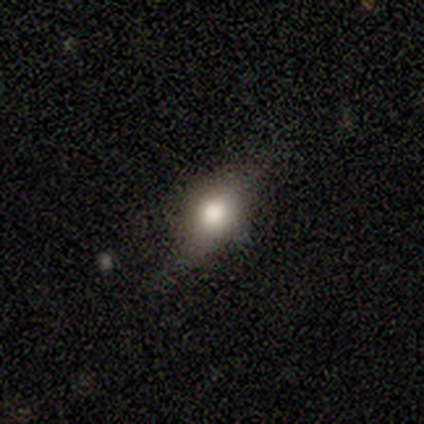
Morphology: type=smooth (40%, tied with featured or disk); roundness=round (50%, tied with in between); merging=none (100%).